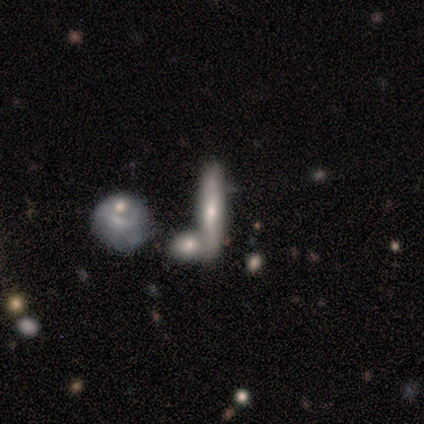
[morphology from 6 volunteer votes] A smooth galaxy with no disk features (50%) that is cigar-shaped (67%).

Vote fractions:
- Smooth or featured? smooth: 50% / star or artifact: 33% / featured or disk: 17%
- How rounded? cigar-shaped: 67% / in between: 33% / round: 0%
- Merging? none: 75% / merger: 25% / minor disturbance: 0% / major disturbance: 0%